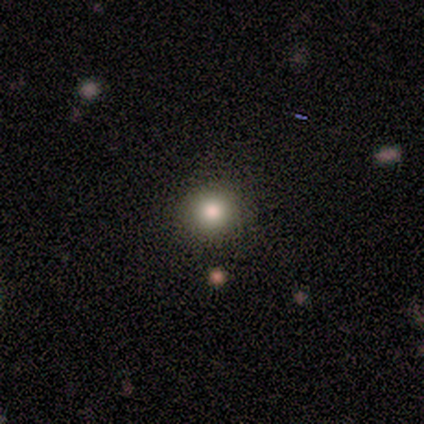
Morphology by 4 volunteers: A smooth galaxy with no disk features (50%, tied with featured or disk) that is round (100%). Merging: none (75%).